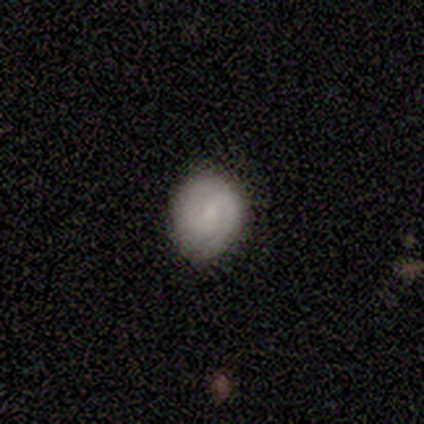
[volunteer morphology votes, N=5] This appears to be a featured or disk galaxy (80%) with a weak bar (50%, tied with no), 2 (100%) tight (50%, tied with medium) spiral arms (100%) and a moderate central bulge (50%). Merging: none (80%).